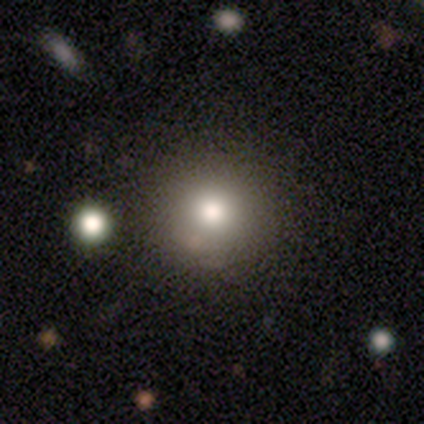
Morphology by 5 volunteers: Smooth or featured: smooth — 80% (featured or disk — 20%)
How rounded: round — 75% (in between — 25%)
Merging: none — 80% (merger — 20%)